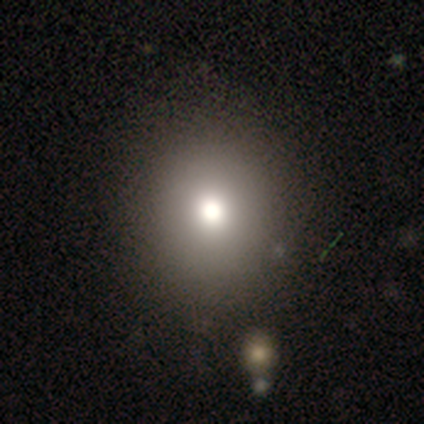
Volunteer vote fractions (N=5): This appears to be a smooth galaxy with no disk features (60%) that is round (67%). Merging: none (67%).